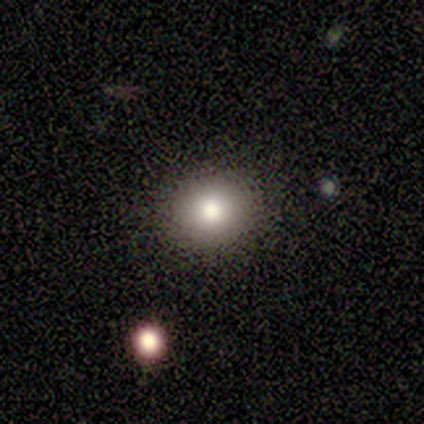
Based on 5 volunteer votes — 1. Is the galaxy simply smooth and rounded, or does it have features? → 60% smooth, 20% featured or disk, 20% star or artifact.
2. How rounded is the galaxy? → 100% round, 0% in between, 0% cigar-shaped.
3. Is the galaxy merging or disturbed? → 75% none, 25% merger, 0% minor disturbance, 0% major disturbance.